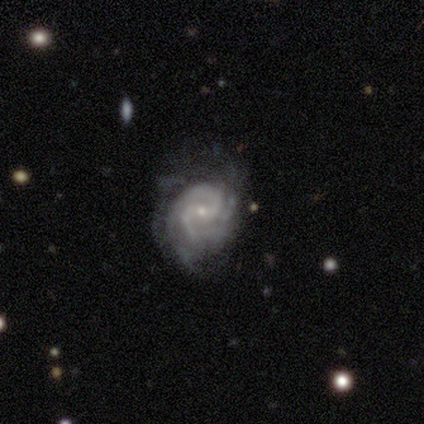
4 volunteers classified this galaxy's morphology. type=featured or disk (100%); edge-on=no (100%); bar=weak (50%, tied with no); spiral arms=yes (100%); winding=tight (75%); arm count=2 (50%, tied with 3); bulge=small (75%); merging=none (75%).